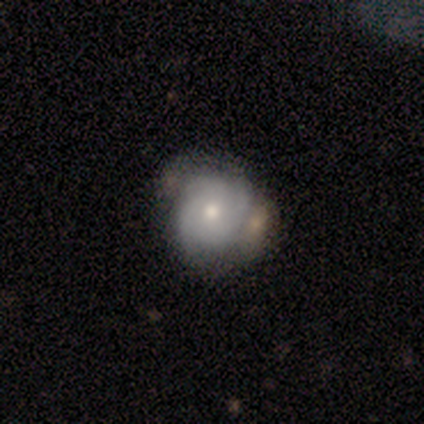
A smooth galaxy with no disk features (100%) that is round (100%).

Vote fractions:
- Smooth or featured? smooth: 100% / featured or disk: 0% / star or artifact: 0%
- How rounded? round: 100% / in between: 0% / cigar-shaped: 0%
- Merging? none: 100% / minor disturbance: 0% / major disturbance: 0% / merger: 0%